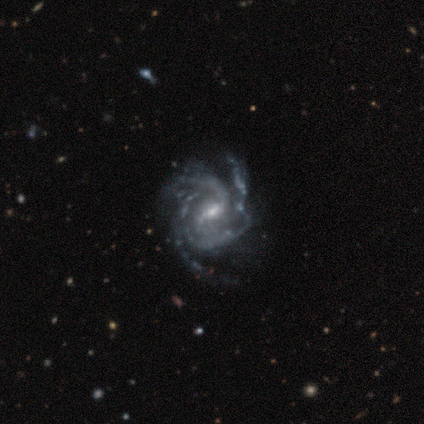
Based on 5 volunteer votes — Smooth or featured? featured or disk (100%)
Edge-on disk? no (100%)
Bar? strong (40%, tied with no)
Spiral arms? yes (100%)
Spiral winding? medium (60%)
Spiral arm count? 3 (100%)
Bulge size? moderate (60%)
Merging? none (60%)